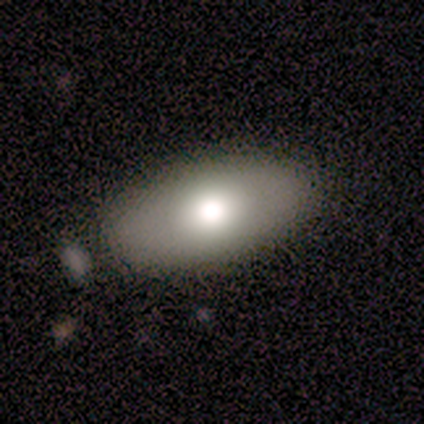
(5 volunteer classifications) This is clearly a smooth galaxy (80%). How rounded: clearly in between (100%). Merging: clearly none (100%).